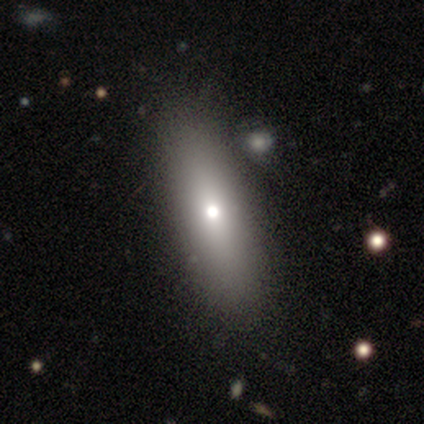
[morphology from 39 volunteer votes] smooth-or-featured: smooth: 62% | featured or disk: 31% | star or artifact: 8%
  how-rounded: in between: 58% | cigar-shaped: 33% | round: 8%
  merging: none: 58% | merger: 6% | minor disturbance: 0% | major disturbance: 0%